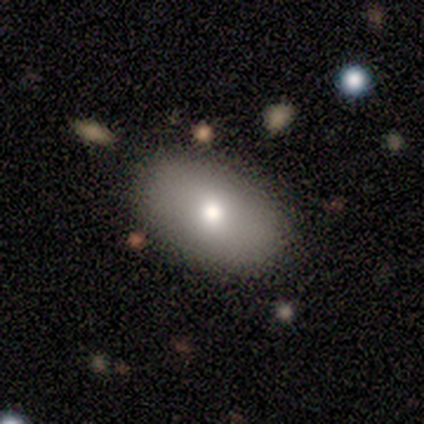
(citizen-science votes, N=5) This is marginally a smooth galaxy (40%, tied with featured or disk). How rounded: clearly in between (100%). Merging: likely none (75%).